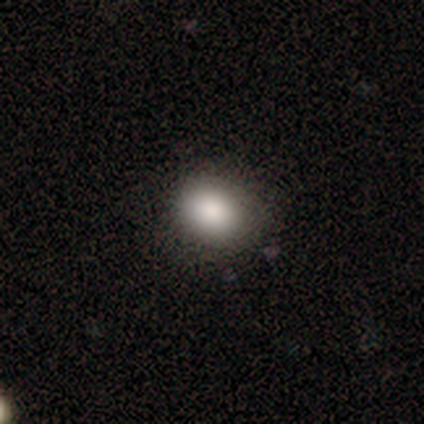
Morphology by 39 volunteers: smooth 90%, featured or disk 5%, star or artifact 5%. Down the decision tree: how rounded — round (51%); merging — none (84%).